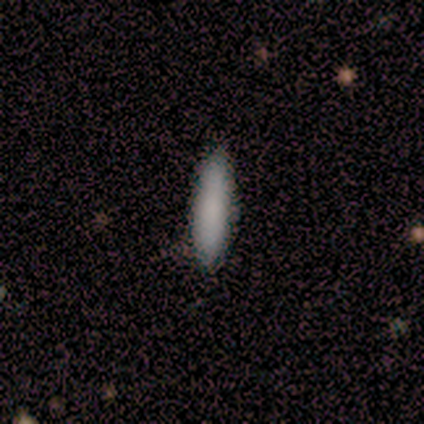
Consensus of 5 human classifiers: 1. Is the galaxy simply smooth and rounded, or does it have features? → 80% smooth, 20% star or artifact, 0% featured or disk.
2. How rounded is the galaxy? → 75% cigar-shaped, 25% in between, 0% round.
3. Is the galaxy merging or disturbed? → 100% none, 0% minor disturbance, 0% major disturbance, 0% merger.